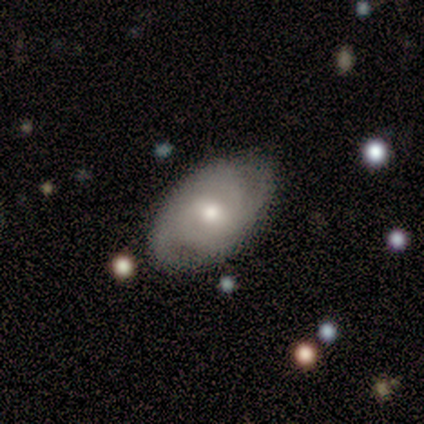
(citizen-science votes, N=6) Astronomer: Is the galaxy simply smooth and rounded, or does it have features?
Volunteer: featured or disk — 67%.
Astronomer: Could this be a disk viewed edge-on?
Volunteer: no — 100%.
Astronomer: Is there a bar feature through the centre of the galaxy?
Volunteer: weak — 50%, tied with no at 50%.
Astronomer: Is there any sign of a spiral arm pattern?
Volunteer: yes — 100%.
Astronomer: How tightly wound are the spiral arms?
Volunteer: medium — 50%.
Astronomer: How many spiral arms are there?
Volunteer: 2 — 75%.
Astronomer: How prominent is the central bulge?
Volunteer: moderate — 75%.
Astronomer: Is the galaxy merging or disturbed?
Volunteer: none — 83%.